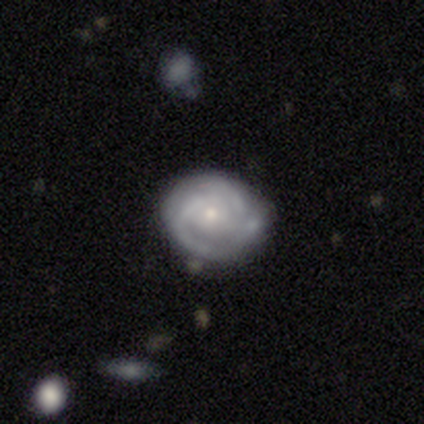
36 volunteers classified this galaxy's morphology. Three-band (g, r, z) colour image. It shows a featured or disk galaxy (72%) with no bar (73%), 3 (46%) tight (54%) spiral arms (92%) and a small central bulge (62%). Merging: none (63%).